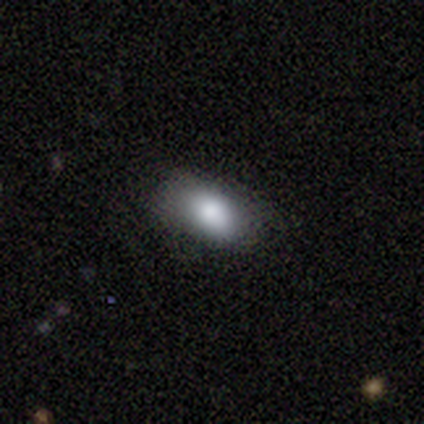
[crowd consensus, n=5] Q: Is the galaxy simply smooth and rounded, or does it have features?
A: smooth — 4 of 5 (80%).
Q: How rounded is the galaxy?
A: in between — 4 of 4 (100%).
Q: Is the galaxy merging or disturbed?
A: none — 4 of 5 (80%).